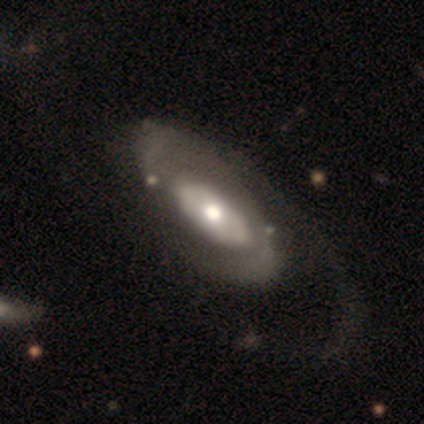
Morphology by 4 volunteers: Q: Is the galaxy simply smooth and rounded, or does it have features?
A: featured or disk — 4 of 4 (100%).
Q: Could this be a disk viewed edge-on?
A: no — 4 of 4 (100%).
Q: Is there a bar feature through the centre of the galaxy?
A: no — 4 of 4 (100%).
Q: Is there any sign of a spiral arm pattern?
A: yes — 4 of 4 (100%).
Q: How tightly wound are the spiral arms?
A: medium — 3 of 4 (75%).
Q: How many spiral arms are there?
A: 1 — 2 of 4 (50%, tied with 2).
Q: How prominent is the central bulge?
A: moderate — 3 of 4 (75%).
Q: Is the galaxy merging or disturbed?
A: none — 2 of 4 (50%).